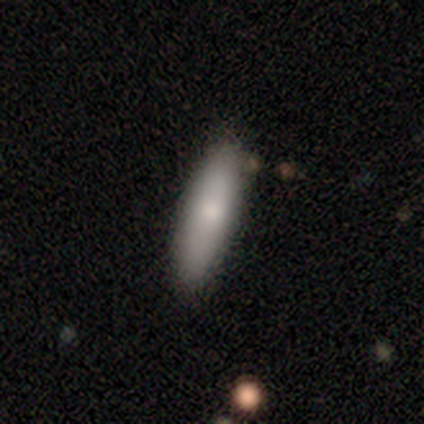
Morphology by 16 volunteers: Q: Smooth or featured?
A: smooth (88%); runner-up: featured or disk (12%)
Q: How rounded?
A: cigar-shaped (64%); runner-up: in between (36%)
Q: Merging?
A: none (94%); runner-up: major disturbance (6%)